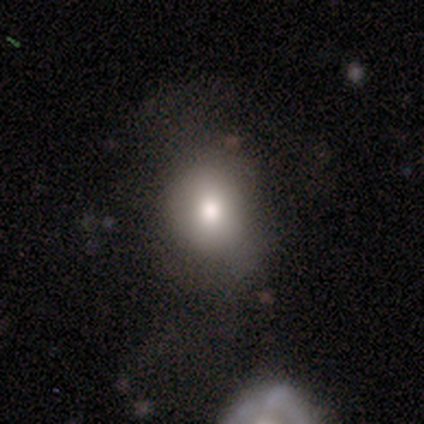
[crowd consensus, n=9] smooth-or-featured: smooth: 100% | featured or disk: 0% | star or artifact: 0%
  how-rounded: round: 56% | in between: 44% | cigar-shaped: 0%
  merging: none: 56% | minor disturbance: 33% | merger: 11% | major disturbance: 0%